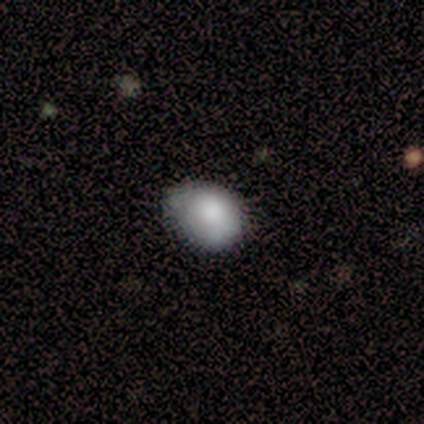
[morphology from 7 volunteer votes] Smooth or featured?
  - smooth: 100% *
  - featured or disk: 0%
  - star or artifact: 0%
How rounded?
  - in between: 71% *
  - round: 29%
  - cigar-shaped: 0%
Merging?
  - none: 86% *
  - minor disturbance: 14%
  - major disturbance: 0%
  - merger: 0%